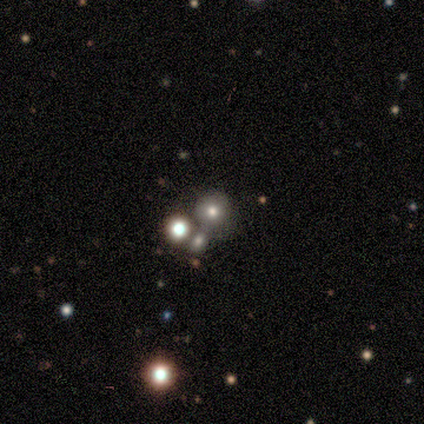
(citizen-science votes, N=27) smooth-or-featured: smooth: 70% | star or artifact: 19% | featured or disk: 11%
  how-rounded: round: 100% | in between: 0% | cigar-shaped: 0%
  merging: none: 45% | merger: 41% | minor disturbance: 14% | major disturbance: 0%